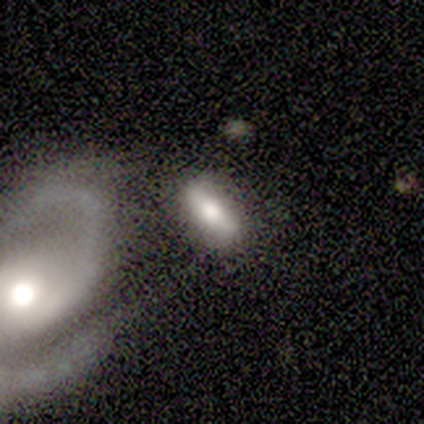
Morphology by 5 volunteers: type=smooth (60%); roundness=in between (100%); merging=merger (75%).